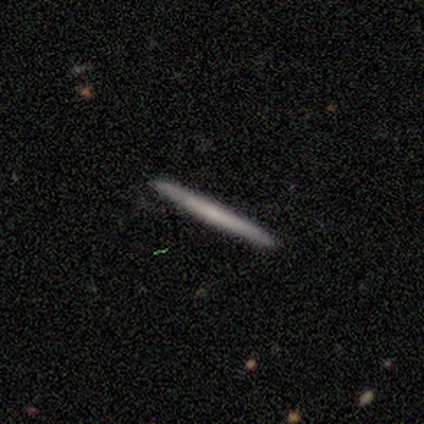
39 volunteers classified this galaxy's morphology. A smooth galaxy with no disk features (51%) that is cigar-shaped (95%).

Vote fractions:
- Smooth or featured? smooth: 51% / featured or disk: 44% / star or artifact: 5%
- How rounded? cigar-shaped: 95% / in between: 5% / round: 0%
- Merging? none: 97% / minor disturbance: 3% / major disturbance: 0% / merger: 0%